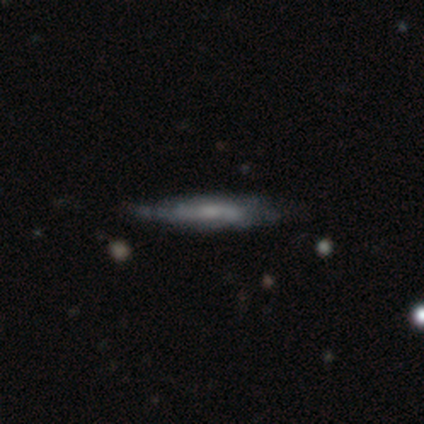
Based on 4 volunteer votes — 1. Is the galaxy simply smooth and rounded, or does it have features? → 100% featured or disk, 0% smooth, 0% star or artifact.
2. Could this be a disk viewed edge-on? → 75% yes, 25% no.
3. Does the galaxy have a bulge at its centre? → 67% none, 33% rounded, 0% boxy.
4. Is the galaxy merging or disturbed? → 75% none, 25% minor disturbance, 0% major disturbance, 0% merger.